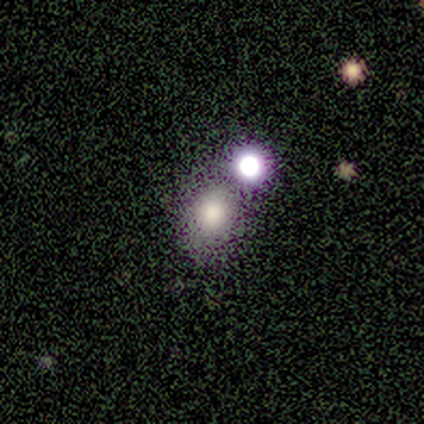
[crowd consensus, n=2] smooth_or_featured: smooth (p=1.00)
how_rounded: round (p=0.50) [tied with: in between p=0.50]
merging: none (p=1.00)